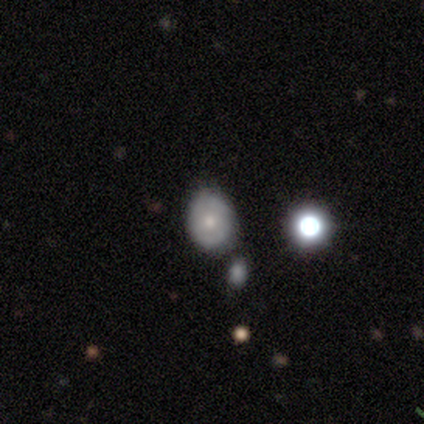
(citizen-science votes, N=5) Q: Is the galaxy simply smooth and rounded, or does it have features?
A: smooth — 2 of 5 (40%, tied with featured or disk).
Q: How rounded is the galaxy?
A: round — 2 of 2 (100%).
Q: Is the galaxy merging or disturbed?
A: none — 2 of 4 (50%, tied with merger).